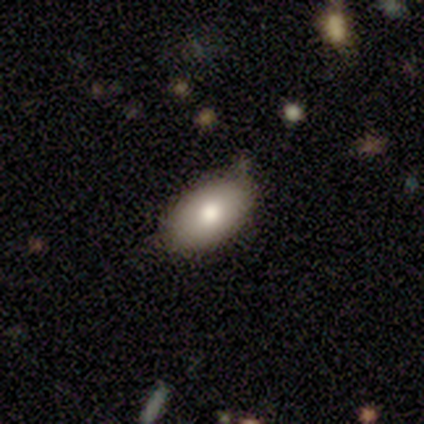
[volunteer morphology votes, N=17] This is likely a smooth galaxy (76%). How rounded: clearly in between (85%). Merging: likely none (69%).